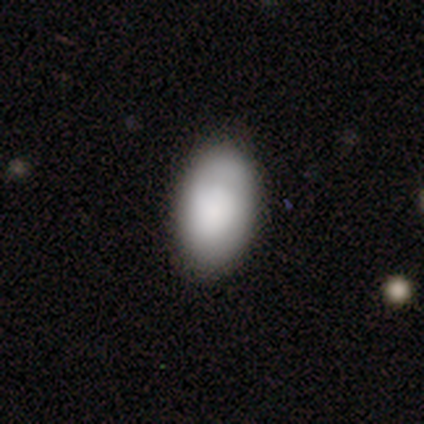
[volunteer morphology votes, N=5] Q: Smooth or featured?
A: smooth (80%); runner-up: featured or disk (20%)
Q: How rounded?
A: in between (100%)
Q: Merging?
A: none (80%); runner-up: minor disturbance (20%)